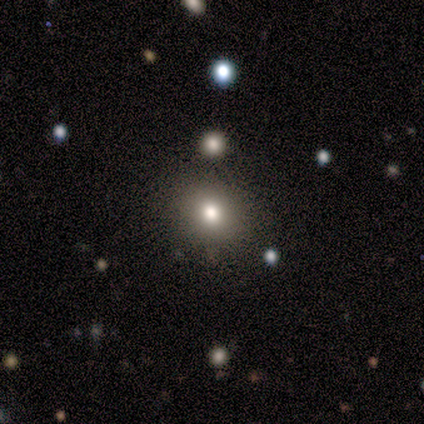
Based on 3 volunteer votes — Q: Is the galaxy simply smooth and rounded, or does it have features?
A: smooth — 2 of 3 (67%).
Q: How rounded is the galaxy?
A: round — 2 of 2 (100%).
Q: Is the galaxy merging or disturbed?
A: none — 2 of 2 (100%).